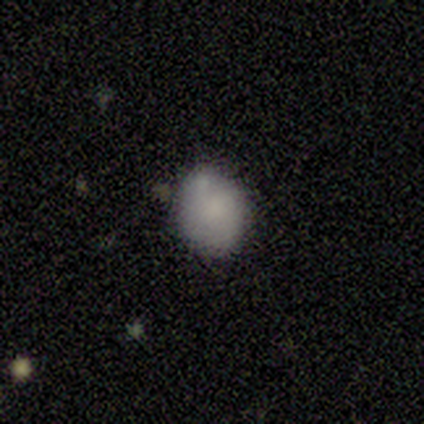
Smooth or featured? 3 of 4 (75%) said smooth. How rounded? 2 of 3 (67%) said in between. Merging? 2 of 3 (67%) said none.